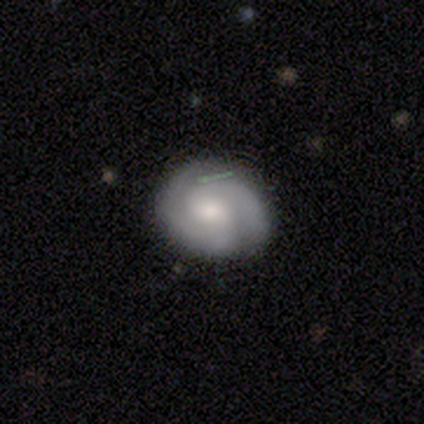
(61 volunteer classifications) This appears to be a featured or disk galaxy (69%) with no bar (63%), 2 (83%) tight (61%) spiral arms (100%) and a moderate central bulge (39%). Merging: none (86%).